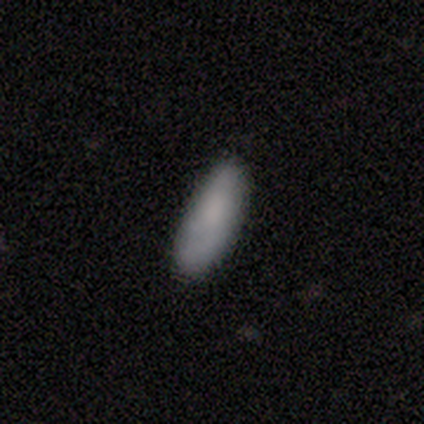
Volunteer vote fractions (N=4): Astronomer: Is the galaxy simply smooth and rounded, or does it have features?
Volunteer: smooth — 75%.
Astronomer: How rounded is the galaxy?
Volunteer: cigar-shaped — 67%.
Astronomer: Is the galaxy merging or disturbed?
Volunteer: none — 100%.